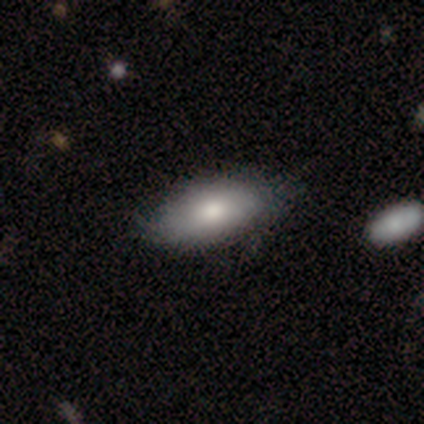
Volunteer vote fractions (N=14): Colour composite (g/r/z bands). It shows a smooth galaxy with no disk features (71%) that is in between round and cigar-shaped (100%). Merging: none (54%).